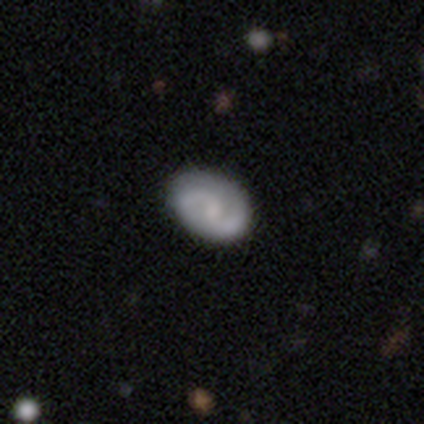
Smooth or featured: featured or disk — 60% (smooth — 20%)
Edge-on disk: no — 100%
Bar: weak — 67% (no — 33%)
Spiral arms: yes — 100%
Spiral winding: loose — 67% (medium — 33%)
Spiral arm count: 2 — 100%
Bulge size: moderate — 67% (none — 33%)
Merging: none — 100%